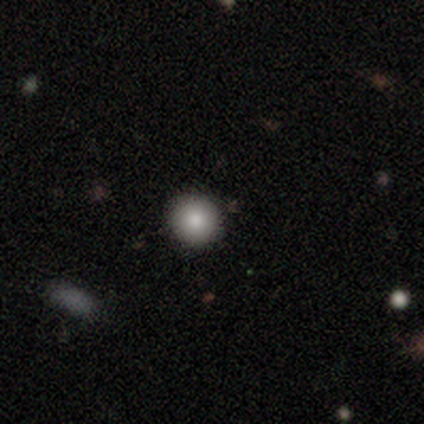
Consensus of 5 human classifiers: smooth-or-featured: smooth: 80% | star or artifact: 20% | featured or disk: 0%
  how-rounded: round: 100% | in between: 0% | cigar-shaped: 0%
  merging: none: 100% | minor disturbance: 0% | major disturbance: 0% | merger: 0%